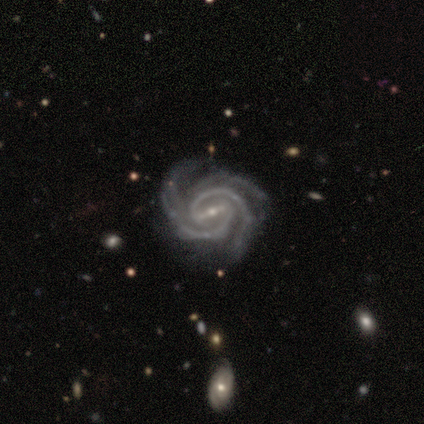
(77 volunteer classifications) smooth_or_featured: featured or disk (p=0.97) [alt: star or artifact p=0.03]
disk_edge_on: no (p=0.99) [alt: yes p=0.01]
bar: strong (p=0.72) [alt: weak p=0.28]
has_spiral_arms: yes (p=0.99) [alt: no p=0.01]
spiral_winding: tight (p=0.67) [alt: medium p=0.32]
spiral_arm_count: 3 (p=0.41) [alt: 2 p=0.40]
bulge_size: small (p=0.86) [alt: moderate p=0.12]
merging: none (p=0.44) [alt: major disturbance p=0.07]